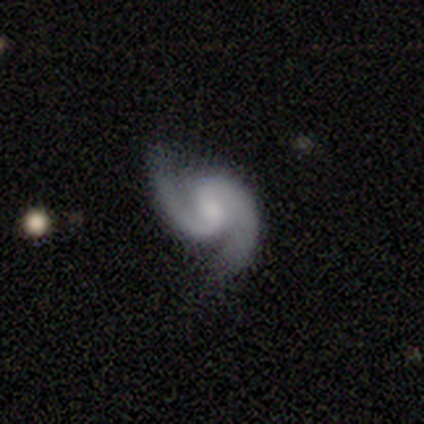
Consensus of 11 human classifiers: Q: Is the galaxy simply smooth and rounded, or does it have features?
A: featured or disk — 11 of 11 (100%).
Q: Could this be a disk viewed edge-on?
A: no — 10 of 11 (91%).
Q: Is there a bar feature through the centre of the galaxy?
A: weak — 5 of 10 (50%).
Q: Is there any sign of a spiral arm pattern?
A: yes — 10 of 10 (100%).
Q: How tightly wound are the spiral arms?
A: medium — 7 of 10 (70%).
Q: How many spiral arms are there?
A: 2 — 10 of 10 (100%).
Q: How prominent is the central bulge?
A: moderate — 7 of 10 (70%).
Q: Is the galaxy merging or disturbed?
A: none — 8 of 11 (73%).